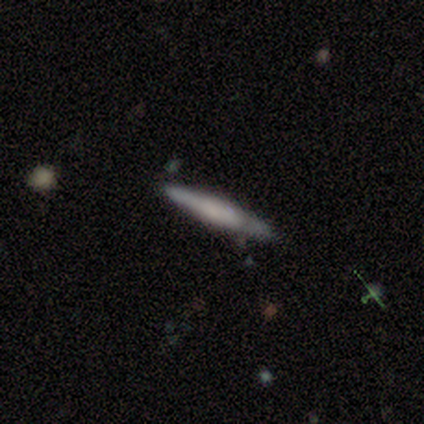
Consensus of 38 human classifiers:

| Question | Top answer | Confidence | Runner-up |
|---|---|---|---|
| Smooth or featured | smooth | 47% | tied: featured or disk (47%) |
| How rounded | cigar-shaped | 100% | — |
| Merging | none | 78% | minor disturbance (19%) |